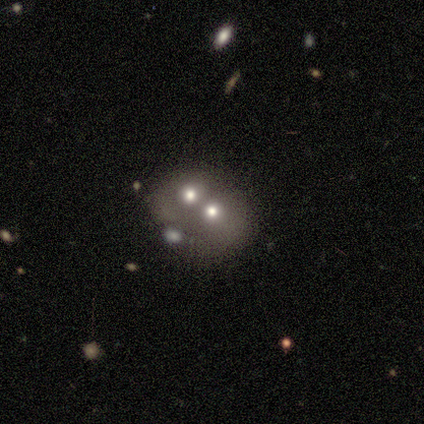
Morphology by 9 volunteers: Smooth or featured?
  - smooth: 33% * (tied)
  - featured or disk: 33% * (tied)
  - star or artifact: 33% * (tied)
How rounded?
  - in between: 67% *
  - round: 33%
  - cigar-shaped: 0%
Merging?
  - merger: 67% *
  - none: 33%
  - minor disturbance: 0%
  - major disturbance: 0%